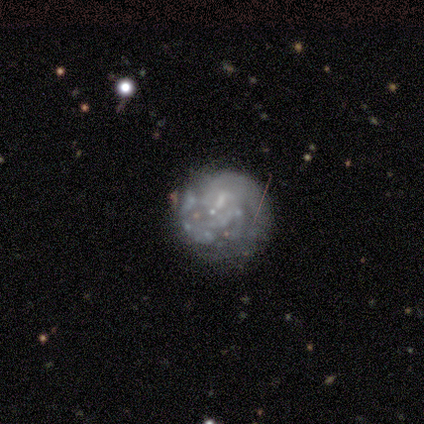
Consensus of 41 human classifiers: This appears to be a featured or disk galaxy (76%) with no bar (71%), no spiral arms (58%) and no central bulge (61%). Merging: none (68%).